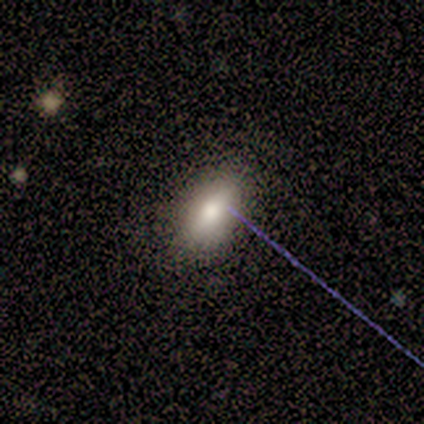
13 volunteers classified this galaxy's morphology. Overall: smooth (69%). How rounded: in between (100%). Merging: none (91%).